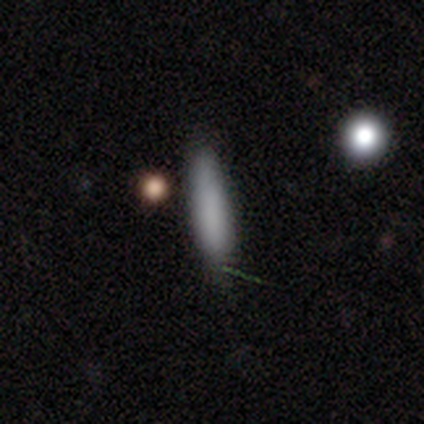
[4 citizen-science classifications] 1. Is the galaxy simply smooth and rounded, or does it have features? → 100% smooth, 0% featured or disk, 0% star or artifact.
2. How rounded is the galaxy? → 75% cigar-shaped, 25% in between, 0% round.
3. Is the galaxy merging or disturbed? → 75% none, 25% merger, 0% minor disturbance, 0% major disturbance.